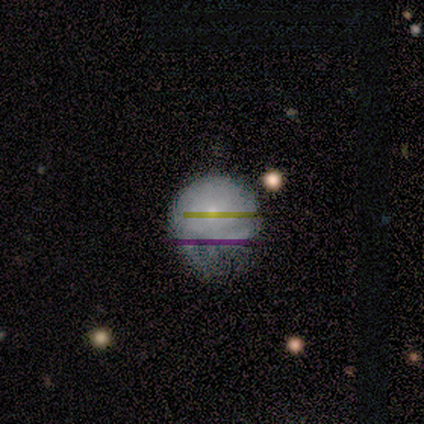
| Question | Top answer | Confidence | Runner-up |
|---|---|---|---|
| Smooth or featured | smooth | 50% | tied: star or artifact (50%) |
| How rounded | round | 100% | — |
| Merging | minor disturbance | 100% | — |